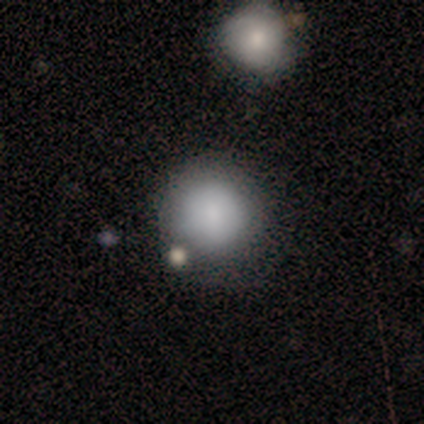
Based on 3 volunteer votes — Volunteers were most divided on "merging": none: 67%, minor disturbance: 33%, major disturbance: 0%, merger: 0%. More confident: smooth or featured — smooth (100%); how rounded — round (100%).